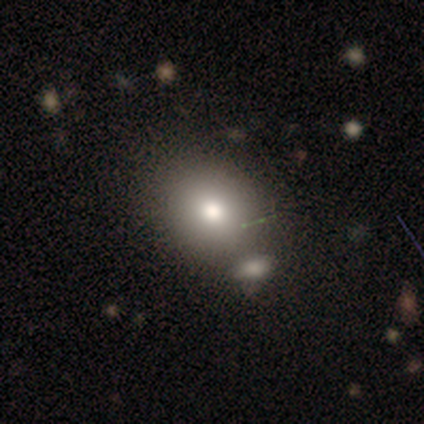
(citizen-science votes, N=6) A smooth galaxy with no disk features (83%) that is round (80%). Merging: none (50%).